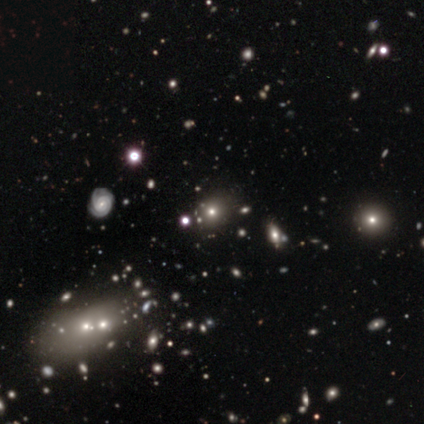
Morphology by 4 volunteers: Q: Smooth or featured?
A: smooth (50%); runner-up: featured or disk (25%)
Q: How rounded?
A: round (100%)
Q: Merging?
A: none (67%); runner-up: minor disturbance (33%)